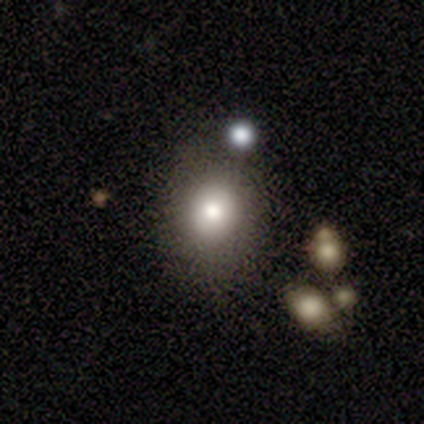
Volunteers were most divided on "how rounded": round: 75%, in between: 25%, cigar-shaped: 0%. More confident: smooth or featured — smooth (100%); merging — none (88%).